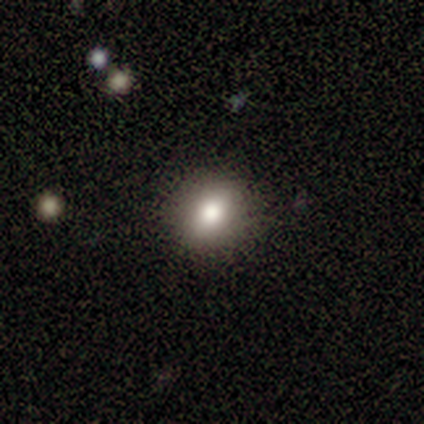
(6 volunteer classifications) Morphology: type=smooth (67%); roundness=round (100%); merging=none (100%).